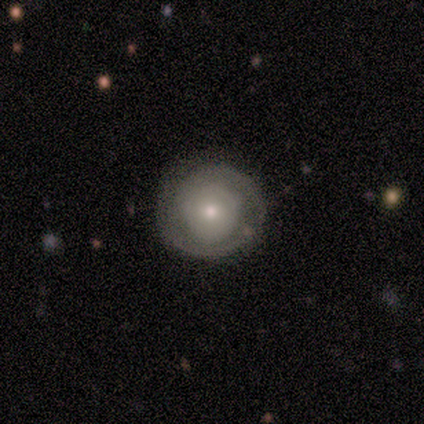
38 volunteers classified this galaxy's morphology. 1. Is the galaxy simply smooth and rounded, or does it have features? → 63% featured or disk, 34% smooth, 3% star or artifact.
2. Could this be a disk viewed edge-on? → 100% no, 0% yes.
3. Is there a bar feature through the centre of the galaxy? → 79% no, 21% weak, 0% strong.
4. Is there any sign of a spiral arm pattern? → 67% yes, 33% no.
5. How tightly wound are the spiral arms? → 75% tight, 12% medium, 12% loose.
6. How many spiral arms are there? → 50% 2, 25% 1, 25% can't tell, 0% 3, 0% 4, 0% more than 4.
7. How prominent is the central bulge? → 46% moderate (tied), 46% small (tied), 4% dominant, 4% large, 0% none.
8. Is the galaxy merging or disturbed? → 78% none, 16% minor disturbance, 3% major disturbance, 3% merger.